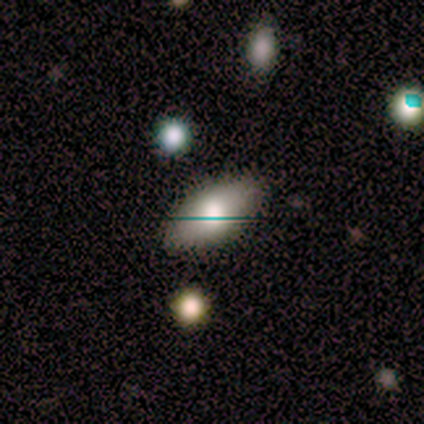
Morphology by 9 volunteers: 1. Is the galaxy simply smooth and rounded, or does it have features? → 67% smooth, 22% star or artifact, 11% featured or disk.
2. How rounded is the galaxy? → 83% in between, 17% cigar-shaped, 0% round.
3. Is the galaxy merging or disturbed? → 86% none, 14% major disturbance, 0% minor disturbance, 0% merger.